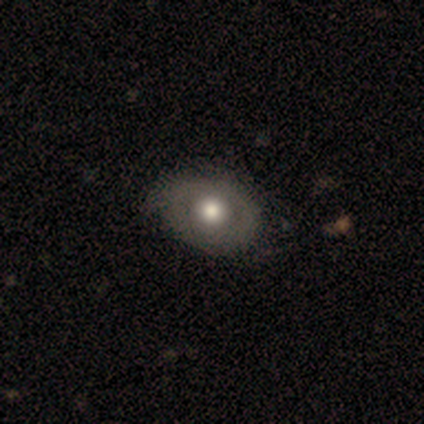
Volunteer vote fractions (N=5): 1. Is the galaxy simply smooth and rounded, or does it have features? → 80% smooth, 20% star or artifact, 0% featured or disk.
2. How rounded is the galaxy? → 75% in between, 25% round, 0% cigar-shaped.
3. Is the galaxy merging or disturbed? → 50% minor disturbance, 25% none, 25% major disturbance, 0% merger.